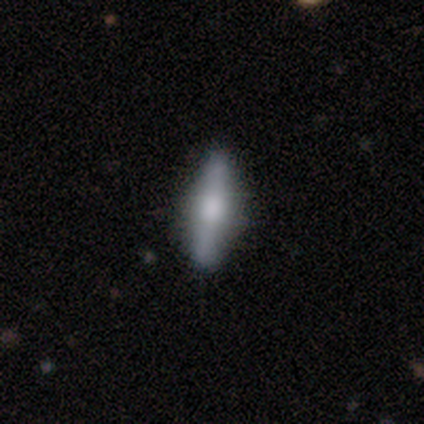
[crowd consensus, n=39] A featured or disk galaxy (56%) viewed edge-on (91%) with a rounded central bulge (80%). Merging: none (76%).